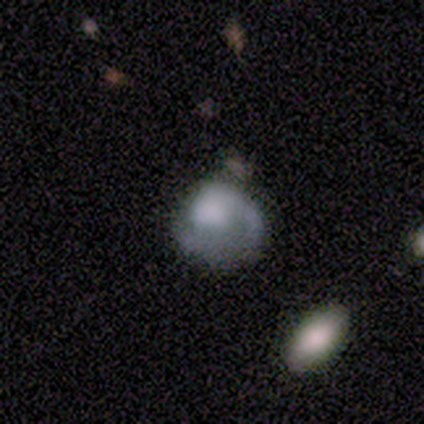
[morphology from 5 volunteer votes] smooth_or_featured: featured or disk (p=0.80) [alt: smooth p=0.20]
disk_edge_on: no (p=1.00)
bar: no (p=0.75) [alt: weak p=0.25]
has_spiral_arms: yes (p=0.75) [alt: no p=0.25]
spiral_winding: loose (p=0.67) [alt: tight p=0.33]
spiral_arm_count: 1 (p=1.00)
bulge_size: large (p=0.50) [tied with: none p=0.50]
merging: major disturbance (p=1.00)